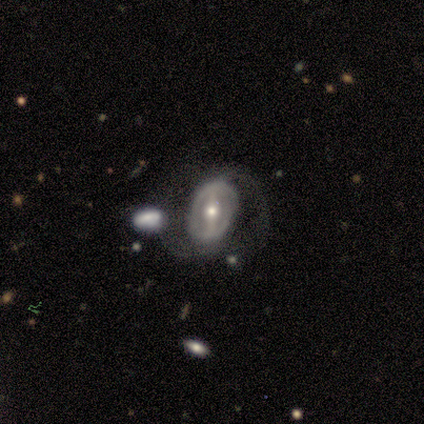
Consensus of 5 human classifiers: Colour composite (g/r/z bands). It shows a featured or disk galaxy (80%) with a strong bar (75%), 2 (67%) loose (67%) spiral arms (75%) and a moderate central bulge (75%). Merging: none (40%, tied with major disturbance).